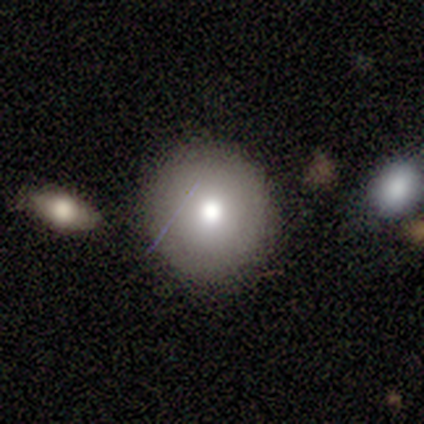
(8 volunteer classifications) Q: Smooth or featured?
A: smooth (62%); runner-up: featured or disk (25%)
Q: How rounded?
A: round (100%)
Q: Merging?
A: none (71%); runner-up: minor disturbance (14%)